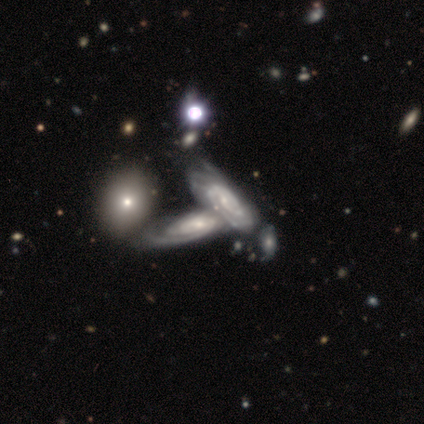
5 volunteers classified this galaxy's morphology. This appears to be a featured or disk galaxy (100%) with no bar (100%), tight (67%) spiral arms (75%) and a small central bulge (75%). Merging: merger (60%).